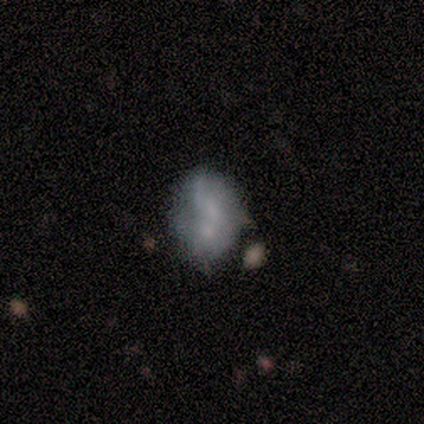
smooth_or_featured: featured or disk (p=0.60) [alt: smooth p=0.40]
disk_edge_on: no (p=1.00)
bar: no (p=1.00)
has_spiral_arms: no (p=1.00)
bulge_size: moderate (p=0.33) [tied with: small p=0.33, none p=0.33]
merging: minor disturbance (p=0.40) [tied with: merger p=0.40]